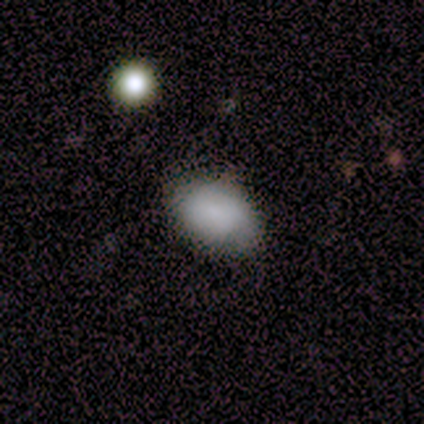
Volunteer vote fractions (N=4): Smooth or featured? smooth (75%)
How rounded? in between (100%)
Merging? minor disturbance (75%)